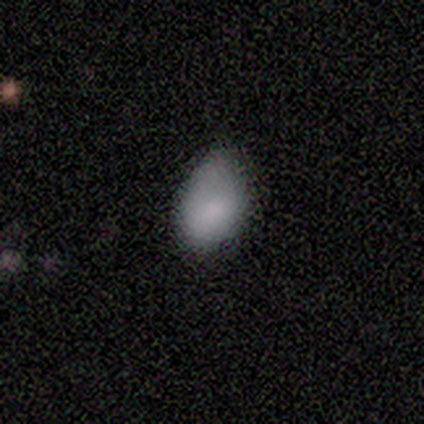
Morphology: type=smooth (100%); roundness=in between (80%); merging=minor disturbance (60%).